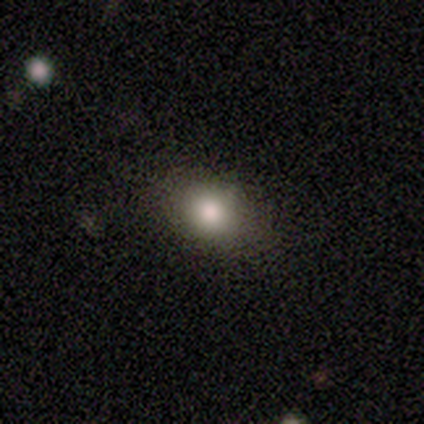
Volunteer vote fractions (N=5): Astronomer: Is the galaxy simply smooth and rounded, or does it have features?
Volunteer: smooth — 60% (runner-up: star or artifact, 40%).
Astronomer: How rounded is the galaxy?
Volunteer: round — 100%.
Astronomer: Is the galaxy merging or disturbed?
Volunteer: none — 67%.